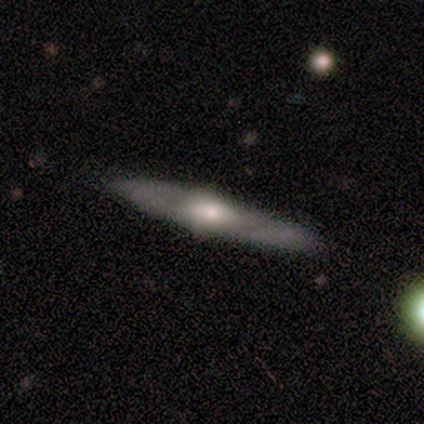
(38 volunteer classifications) featured or disk 74%, smooth 21%, star or artifact 5%. Down the decision tree: edge-on disk — yes (79%); edge-on bulge — rounded (95%); merging — none (89%).